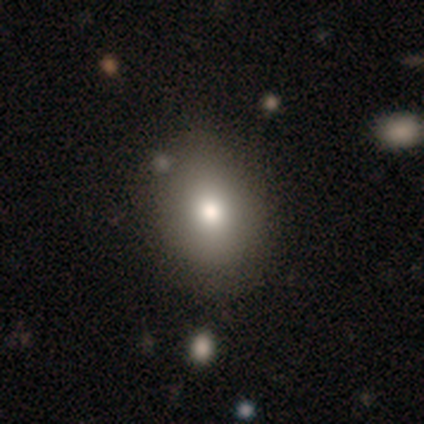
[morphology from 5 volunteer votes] Q: Smooth or featured?
A: smooth (60%); runner-up: featured or disk (20%)
Q: How rounded?
A: in between (100%)
Q: Merging?
A: none (50%); tied with: minor disturbance (50%)